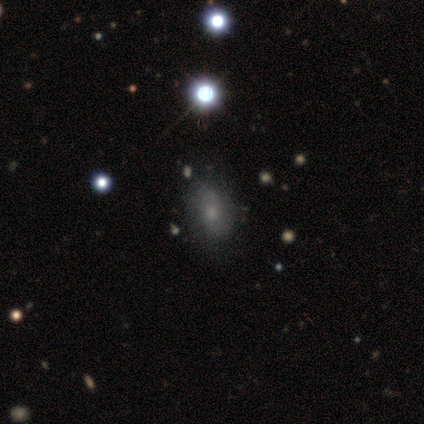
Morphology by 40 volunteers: Overall: smooth (55%; featured or disk 35%). How rounded: in between (95%). Merging: none (78%).